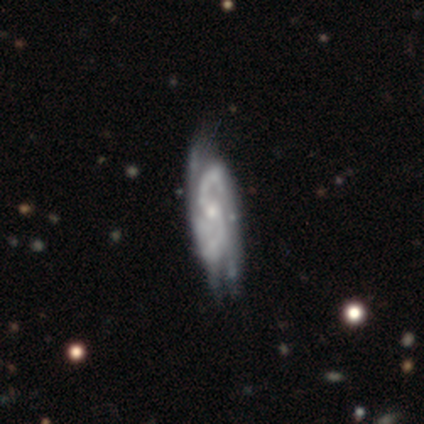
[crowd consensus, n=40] smooth-or-featured: featured or disk: 85% | smooth: 12% | star or artifact: 2%
  disk-edge-on: no: 88% | yes: 12%
    bar: weak: 47% | no: 43% | strong: 10%
    has-spiral-arms: yes: 97% | no: 3%
      spiral-winding: medium: 62% | tight: 24% | loose: 14%
      spiral-arm-count: 2: 72% | 3: 17% | can't tell: 10% | 1: 0% | 4: 0% | more than 4: 0%
    bulge-size: small: 57% | moderate: 30% | none: 10% | dominant: 3% | large: 0%
  merging: minor disturbance: 46% | none: 44% | major disturbance: 8% | merger: 3%